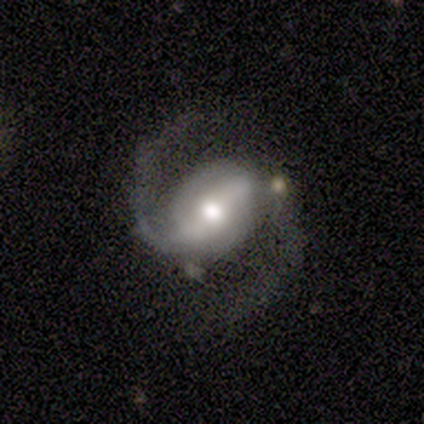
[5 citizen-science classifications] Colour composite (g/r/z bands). It shows a featured or disk galaxy (100%) with a strong bar (80%), 2 (100%) medium (80%) spiral arms (100%) and a moderate central bulge (60%). Merging: none (80%).